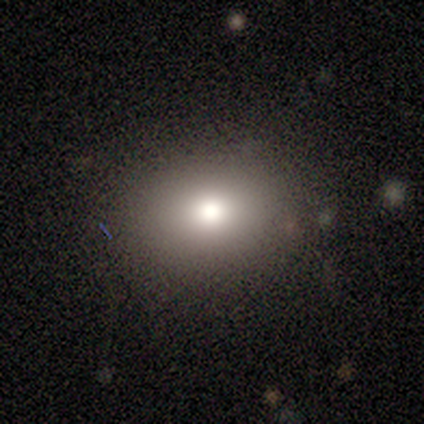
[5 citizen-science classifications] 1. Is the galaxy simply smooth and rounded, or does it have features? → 80% smooth, 20% featured or disk, 0% star or artifact.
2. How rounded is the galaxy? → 75% in between, 25% round, 0% cigar-shaped.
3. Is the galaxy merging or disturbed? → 80% none, 20% minor disturbance, 0% major disturbance, 0% merger.